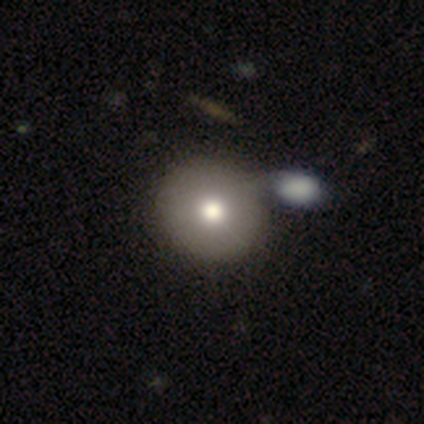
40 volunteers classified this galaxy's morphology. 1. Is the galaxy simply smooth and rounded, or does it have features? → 82% smooth, 18% featured or disk, 0% star or artifact.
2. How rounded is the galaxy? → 91% round, 9% in between, 0% cigar-shaped.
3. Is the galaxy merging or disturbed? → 38% merger, 35% none, 10% minor disturbance, 0% major disturbance.